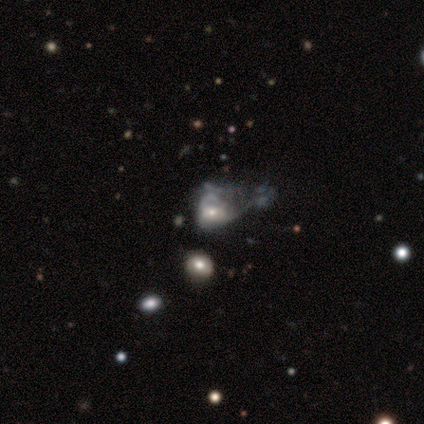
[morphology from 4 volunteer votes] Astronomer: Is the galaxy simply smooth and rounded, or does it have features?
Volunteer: smooth — 50%, tied with featured or disk at 50%.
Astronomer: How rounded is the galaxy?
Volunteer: round — 50%, tied with in between at 50%.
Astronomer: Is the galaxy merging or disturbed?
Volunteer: major disturbance — 75%.